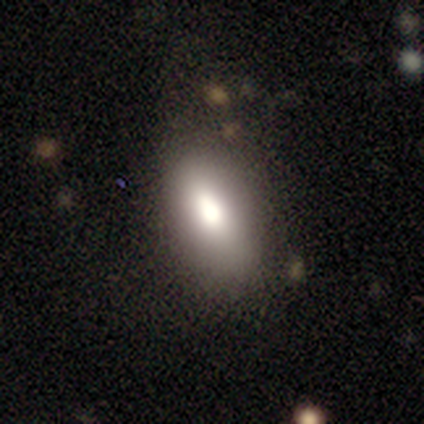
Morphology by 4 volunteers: smooth 100%, featured or disk 0%, star or artifact 0%. Down the decision tree: how rounded — in between (100%); merging — none (75%).